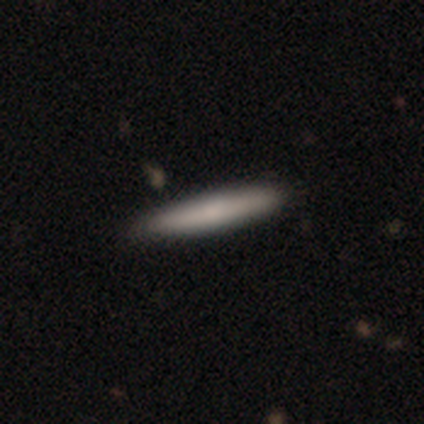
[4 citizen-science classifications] This is likely a smooth galaxy (75%). How rounded: clearly cigar-shaped (100%). Merging: likely none (67%).